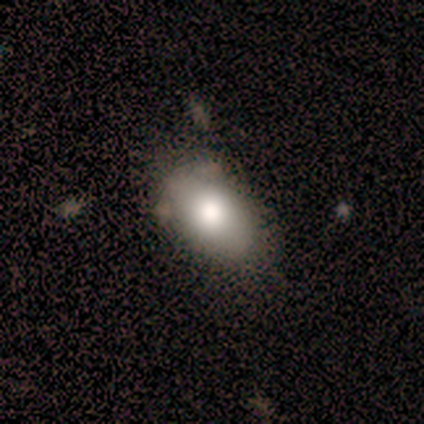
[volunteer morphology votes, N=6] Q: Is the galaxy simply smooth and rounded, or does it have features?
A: smooth — 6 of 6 (100%).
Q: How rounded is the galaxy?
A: in between — 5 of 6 (83%).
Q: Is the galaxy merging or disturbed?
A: none — 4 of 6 (67%).